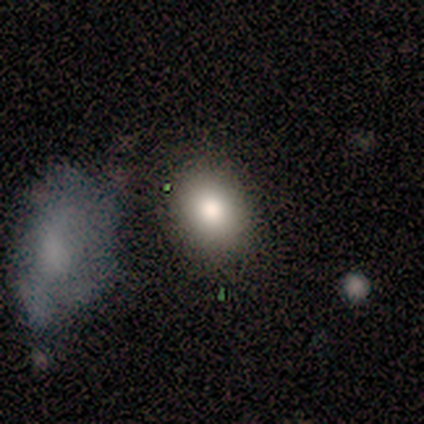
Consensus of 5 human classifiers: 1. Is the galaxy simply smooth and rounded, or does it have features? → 80% smooth, 20% featured or disk, 0% star or artifact.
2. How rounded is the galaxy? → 75% round, 25% in between, 0% cigar-shaped.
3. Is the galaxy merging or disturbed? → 60% none, 20% minor disturbance, 20% merger, 0% major disturbance.